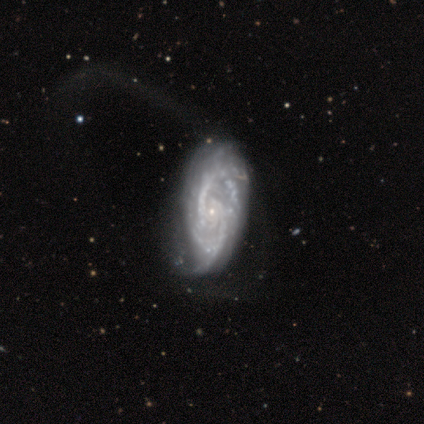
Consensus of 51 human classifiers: featured or disk 90%, smooth 6%, star or artifact 4%. Down the decision tree: edge-on disk — no (96%); bar — no (77%); spiral arms — yes (93%); spiral arm count — 2 (59%); spiral winding — medium (51%); bulge size — small (91%); merging — none (45%).